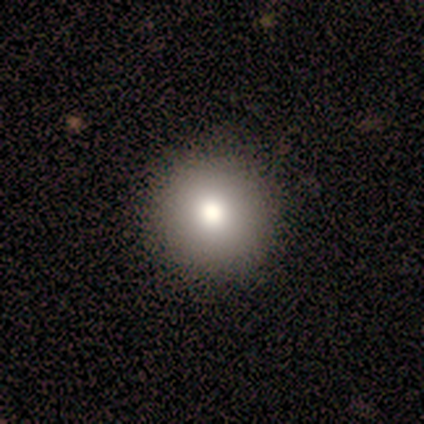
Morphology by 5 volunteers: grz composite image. It shows a smooth galaxy with no disk features (80%) that is round (100%). Merging: none (75%).